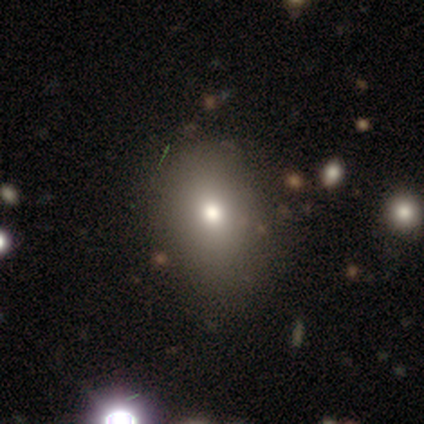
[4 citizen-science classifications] Smooth or featured? 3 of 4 (75%) said smooth. How rounded? 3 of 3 (100%) said in between. Merging? 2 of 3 (67%) said none.